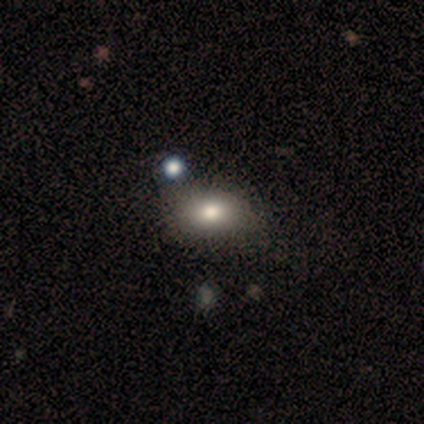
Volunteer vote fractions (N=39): Overall: smooth (77%). How rounded: in between (70%). Merging: none (69%).